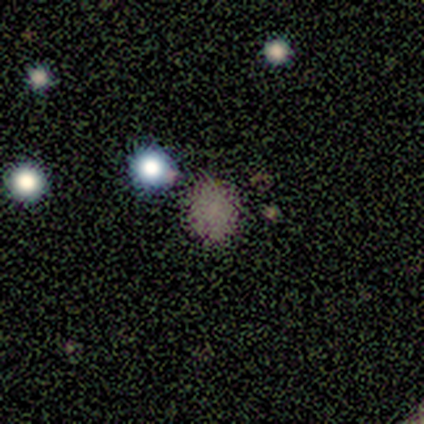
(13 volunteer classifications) This is likely a smooth galaxy (69%). How rounded: likely round (78%). Merging: likely none (78%).